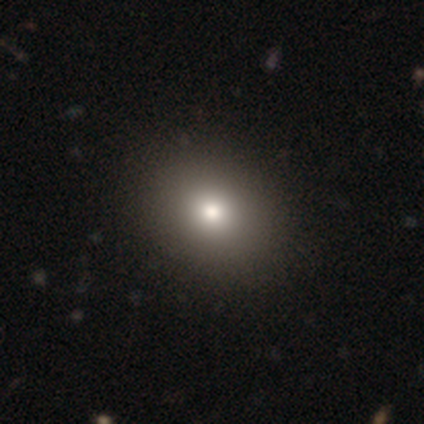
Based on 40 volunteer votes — smooth_or_featured: smooth (p=0.85) [alt: featured or disk p=0.07]
how_rounded: round (p=0.59) [alt: in between p=0.41]
merging: none (p=0.73) [alt: minor disturbance p=0.05]